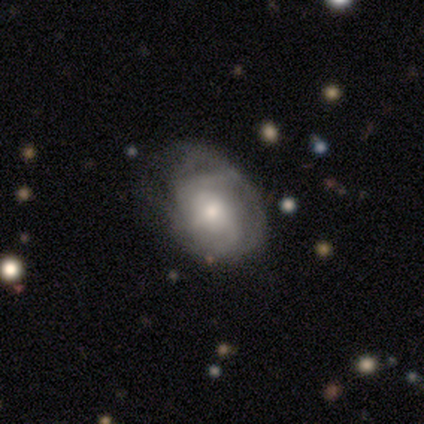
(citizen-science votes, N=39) A featured or disk galaxy (90%) with no bar (74%), tight (60%) spiral arms (88%) and a small central bulge (50%). Merging: none (44%).